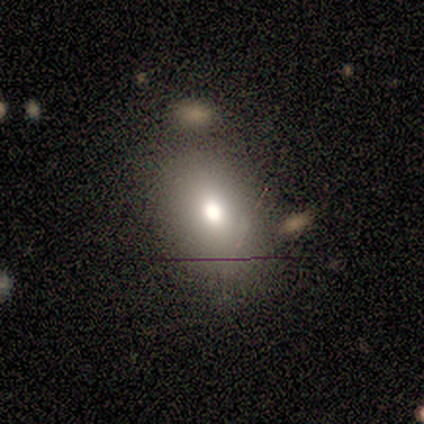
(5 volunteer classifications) Smooth or featured?
  - smooth: 60% *
  - featured or disk: 20%
  - star or artifact: 20%
How rounded?
  - in between: 67% *
  - round: 33%
  - cigar-shaped: 0%
Merging?
  - none: 75% *
  - major disturbance: 25%
  - minor disturbance: 0%
  - merger: 0%